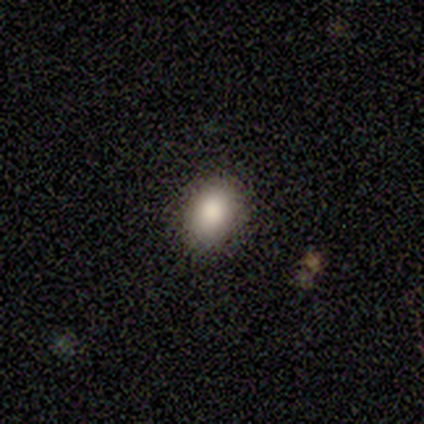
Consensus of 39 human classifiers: smooth-or-featured: smooth: 87% | star or artifact: 8% | featured or disk: 5%
  how-rounded: in between: 71% | round: 29% | cigar-shaped: 0%
  merging: none: 81% | minor disturbance: 17% | merger: 3% | major disturbance: 0%